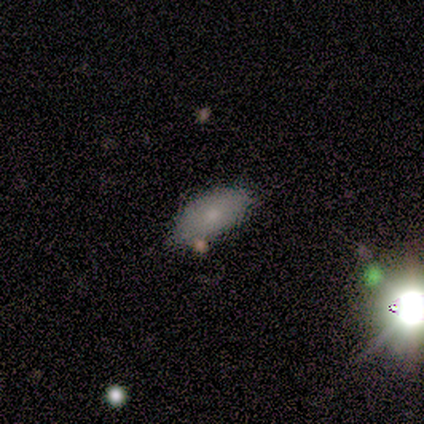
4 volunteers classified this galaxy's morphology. Overall: smooth (100%). How rounded: in between (100%). Merging: none (100%).